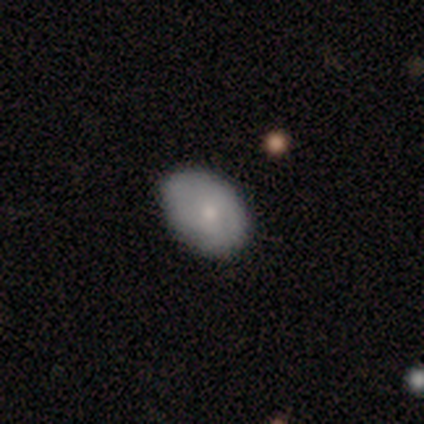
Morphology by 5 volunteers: This appears to be a featured or disk galaxy (60%) with no bar (100%), no spiral arms (100%) and a moderate central bulge (67%). Merging: none (80%).